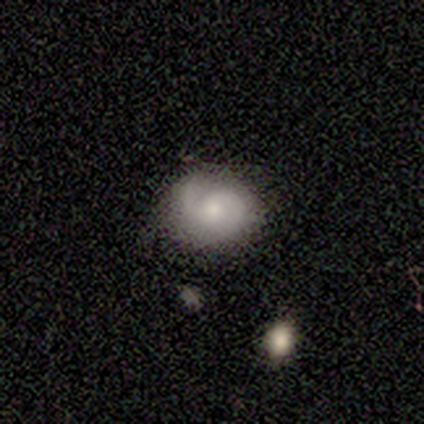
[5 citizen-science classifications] smooth-or-featured: smooth: 60% | featured or disk: 40% | star or artifact: 0%
  how-rounded: in between: 67% | round: 33% | cigar-shaped: 0%
  merging: minor disturbance: 60% | none: 20% | major disturbance: 20% | merger: 0%